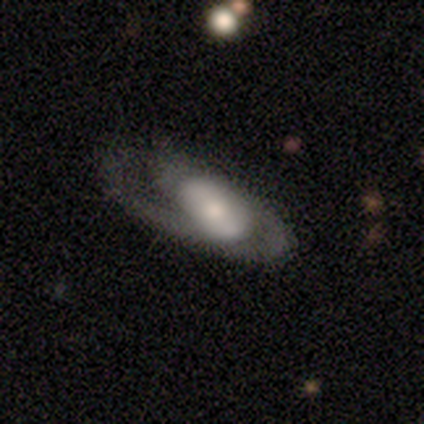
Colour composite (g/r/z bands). It shows a featured or disk galaxy (82%) with no bar (45%), 2 (52%) medium (63%) spiral arms (82%) and a moderate central bulge (48%). Merging: major disturbance (38%).